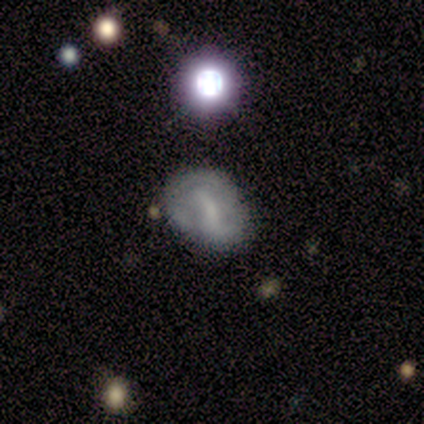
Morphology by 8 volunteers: smooth-or-featured: featured or disk: 62% | star or artifact: 25% | smooth: 12%
  disk-edge-on: no: 80% | yes: 20%
    bar: weak: 50% (tied) | no: 50% (tied) | strong: 0%
    has-spiral-arms: yes: 50% (tied) | no: 50% (tied)
      spiral-winding: loose: 100% | tight: 0% | medium: 0%
      spiral-arm-count: 2: 100% | 1: 0% | 3: 0% | 4: 0% | more than 4: 0% | can't tell: 0%
    bulge-size: small: 75% | none: 25% | dominant: 0% | large: 0% | moderate: 0%
  merging: minor disturbance: 50% | none: 33% | major disturbance: 17% | merger: 0%